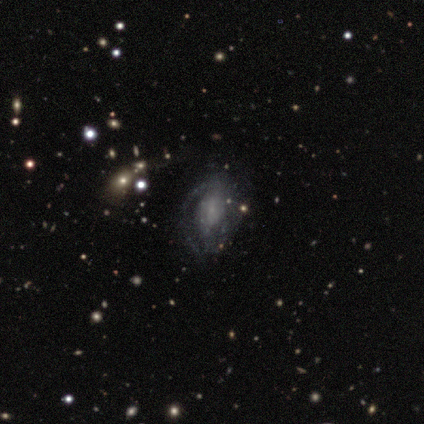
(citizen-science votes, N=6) A featured or disk galaxy (100%) with no bar (83%), no spiral arms (67%) and a small central bulge (83%).

Vote fractions:
- Smooth or featured? featured or disk: 100% / smooth: 0% / star or artifact: 0%
- Edge-on disk? no: 100% / yes: 0%
- Bar? no: 83% / weak: 17% / strong: 0%
- Spiral arms? no: 67% / yes: 33%
- Bulge size? small: 83% / none: 17% / dominant: 0% / large: 0% / moderate: 0%
- Merging? minor disturbance: 67% / none: 17% / major disturbance: 17% / merger: 0%